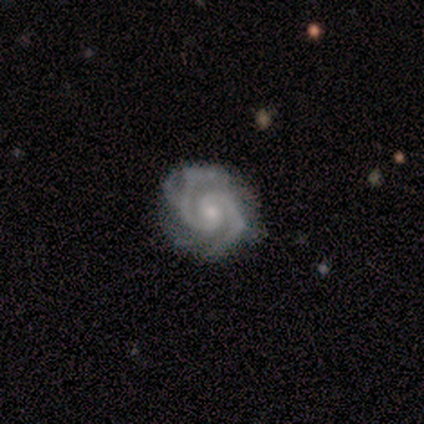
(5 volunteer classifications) smooth-or-featured: featured or disk: 100% | smooth: 0% | star or artifact: 0%
  disk-edge-on: no: 80% | yes: 20%
    bar: weak: 50% (tied) | no: 50% (tied) | strong: 0%
    has-spiral-arms: yes: 100% | no: 0%
      spiral-winding: medium: 75% | tight: 25% | loose: 0%
      spiral-arm-count: 2: 100% | 1: 0% | 3: 0% | 4: 0% | more than 4: 0% | can't tell: 0%
    bulge-size: small: 75% | moderate: 25% | dominant: 0% | large: 0% | none: 0%
  merging: none: 80% | minor disturbance: 20% | major disturbance: 0% | merger: 0%